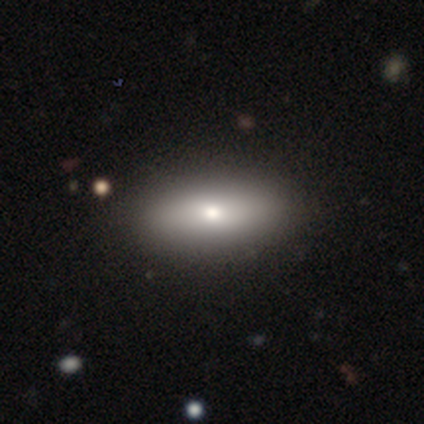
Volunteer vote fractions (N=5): smooth-or-featured: smooth: 60% | featured or disk: 40% | star or artifact: 0%
  how-rounded: in between: 100% | round: 0% | cigar-shaped: 0%
  merging: none: 100% | minor disturbance: 0% | major disturbance: 0% | merger: 0%